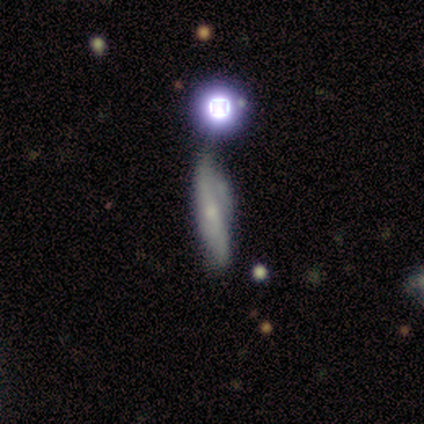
smooth 45% (tied), featured or disk 45% (tied), star or artifact 9%. Down the decision tree: how rounded — cigar-shaped (100%); merging — none (60%).